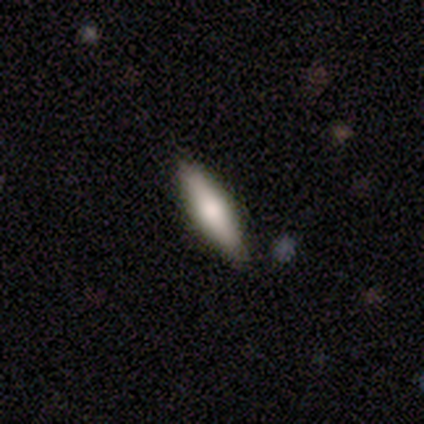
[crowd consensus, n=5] Smooth or featured? smooth (60%)
How rounded? cigar-shaped (67%)
Merging? none (75%)